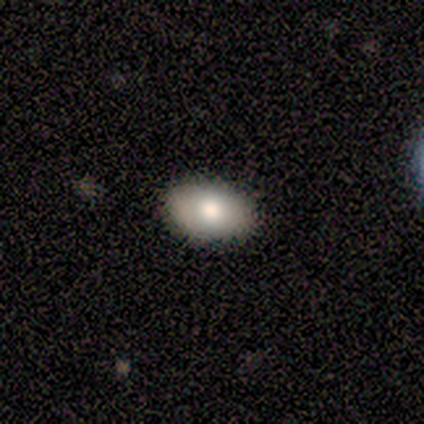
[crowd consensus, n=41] Smooth or featured? 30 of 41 (73%) said smooth. How rounded? 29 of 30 (97%) said in between. Merging? 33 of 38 (87%) said none.